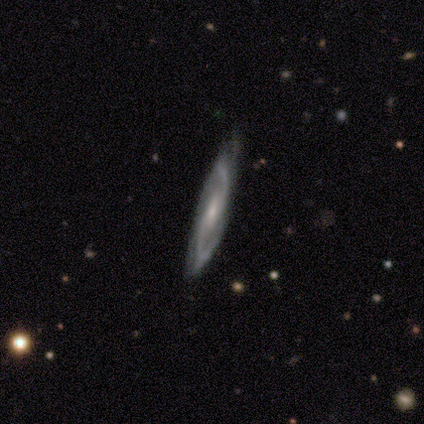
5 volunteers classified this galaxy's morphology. featured or disk 80%, smooth 20%, star or artifact 0%. Down the decision tree: edge-on disk — no (100%); bar — weak (50%, tied with no); spiral arms — yes (100%); spiral arm count — 2 (100%); spiral winding — medium (75%); bulge size — moderate (50%, tied with small); merging — none (60%).